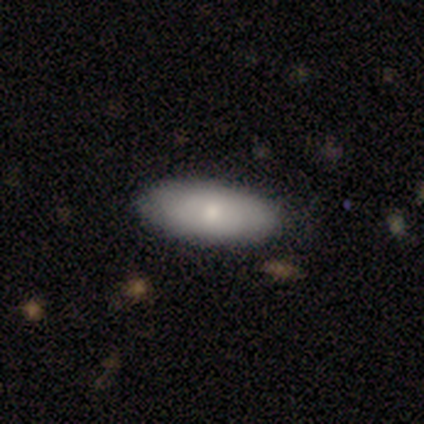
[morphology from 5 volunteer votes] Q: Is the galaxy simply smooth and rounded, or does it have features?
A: smooth — 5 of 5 (100%).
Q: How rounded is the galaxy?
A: in between — 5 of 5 (100%).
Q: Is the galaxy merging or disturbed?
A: none — 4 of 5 (80%).